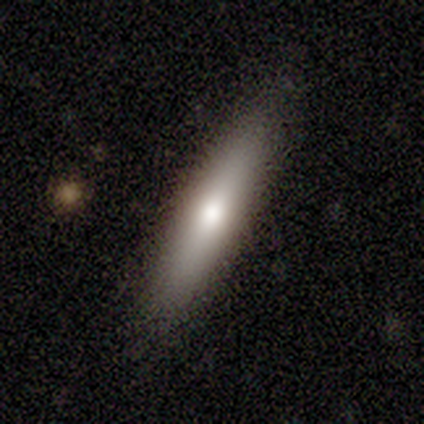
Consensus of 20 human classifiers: This is likely a smooth galaxy (65%). How rounded: clearly cigar-shaped (92%). Merging: clearly none (89%).